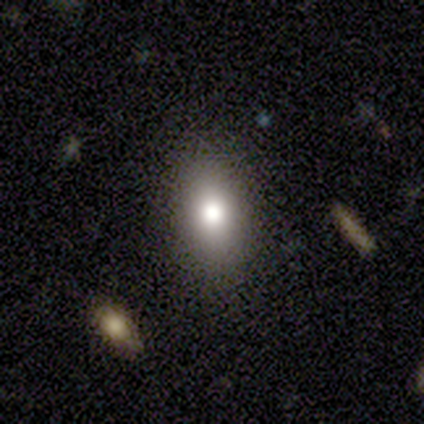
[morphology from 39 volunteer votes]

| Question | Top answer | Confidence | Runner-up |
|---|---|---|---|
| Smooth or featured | smooth | 95% | featured or disk (3%) |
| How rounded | in between | 73% | round (19%) |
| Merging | none | 87% | minor disturbance (11%) |